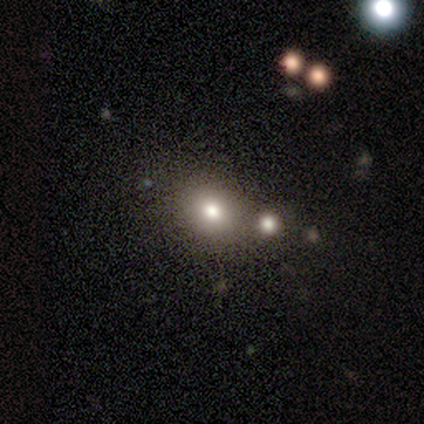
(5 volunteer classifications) Q: Smooth or featured?
A: smooth (100%)
Q: How rounded?
A: round (60%); runner-up: in between (40%)
Q: Merging?
A: none (80%); runner-up: minor disturbance (20%)